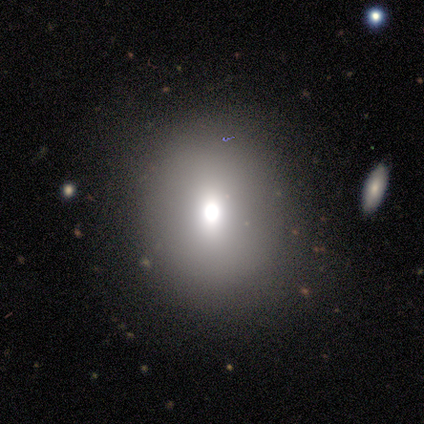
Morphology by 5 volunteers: Q: Smooth or featured?
A: star or artifact (60%); runner-up: smooth (40%)